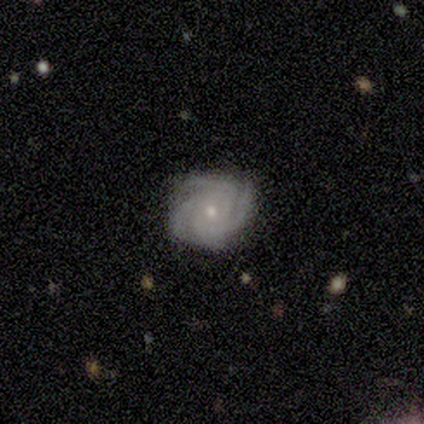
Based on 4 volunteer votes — Smooth or featured: featured or disk — 100%
Edge-on disk: no — 100%
Bar: no — 100%
Spiral arms: yes — 100%
Spiral winding: tight — 75% (medium — 25%)
Spiral arm count: 4 — 50% (3 — 25%)
Bulge size: small — 100%
Merging: none — 100%